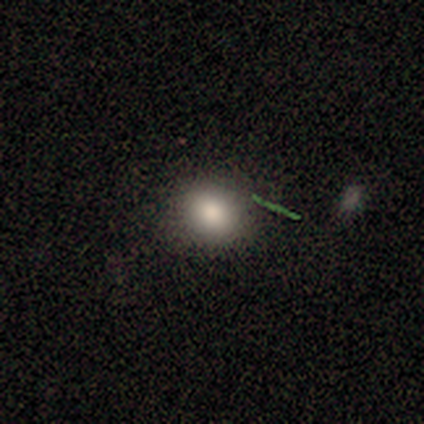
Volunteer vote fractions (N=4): A smooth galaxy with no disk features (100%) that is round (100%).

Vote fractions:
- Smooth or featured? smooth: 100% / featured or disk: 0% / star or artifact: 0%
- How rounded? round: 100% / in between: 0% / cigar-shaped: 0%
- Merging? none: 100% / minor disturbance: 0% / major disturbance: 0% / merger: 0%